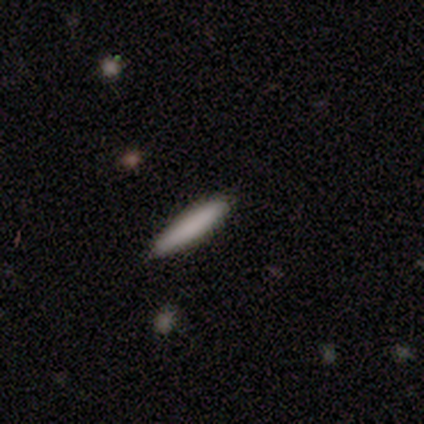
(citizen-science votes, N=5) This is clearly a smooth galaxy (100%). How rounded: clearly cigar-shaped (80%). Merging: clearly none (100%).